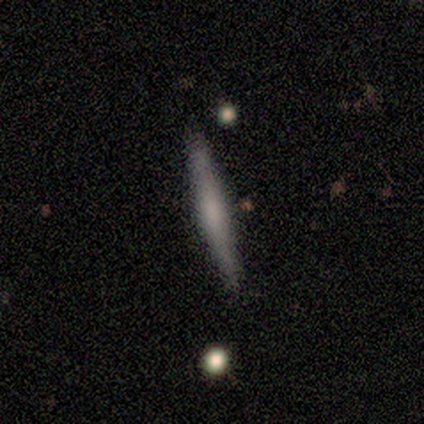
Morphology: type=featured or disk (57%); edge-on=yes (100%); edge-on bulge=rounded (50%); merging=none (100%).